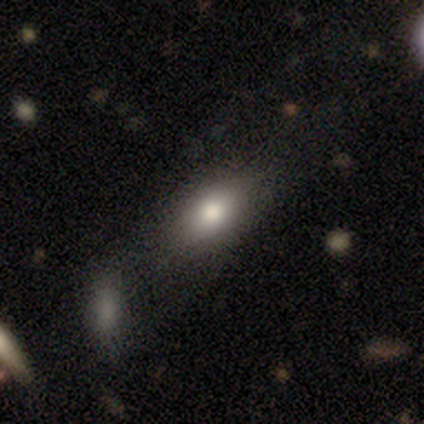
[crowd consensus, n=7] smooth-or-featured: smooth: 71% | featured or disk: 29% | star or artifact: 0%
  how-rounded: in between: 80% | cigar-shaped: 20% | round: 0%
  merging: none: 71% | merger: 29% | minor disturbance: 0% | major disturbance: 0%